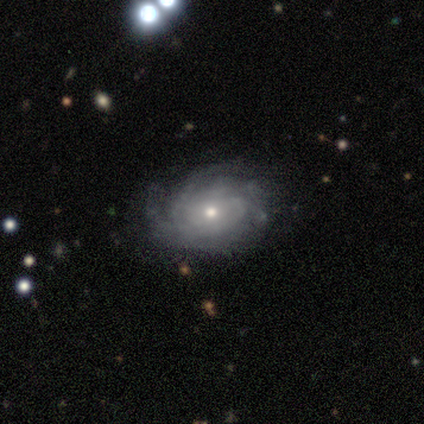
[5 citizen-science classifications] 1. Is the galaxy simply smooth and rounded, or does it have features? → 80% featured or disk, 20% smooth, 0% star or artifact.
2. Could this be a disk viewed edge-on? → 100% no, 0% yes.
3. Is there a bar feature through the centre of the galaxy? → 75% no, 25% weak, 0% strong.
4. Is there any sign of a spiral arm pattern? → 100% yes, 0% no.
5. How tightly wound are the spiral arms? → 75% medium, 25% tight, 0% loose.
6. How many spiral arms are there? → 75% can't tell, 25% 3, 0% 1, 0% 2, 0% 4, 0% more than 4.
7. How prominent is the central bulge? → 50% moderate (tied), 50% small (tied), 0% dominant, 0% large, 0% none.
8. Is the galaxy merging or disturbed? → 100% none, 0% minor disturbance, 0% major disturbance, 0% merger.